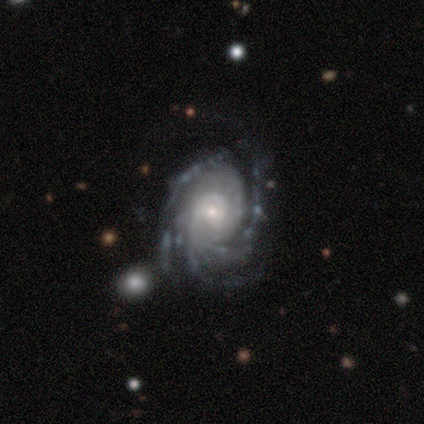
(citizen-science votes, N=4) smooth_or_featured: featured or disk (p=1.00)
disk_edge_on: no (p=1.00)
bar: weak (p=0.50) [tied with: no p=0.50]
has_spiral_arms: yes (p=1.00)
spiral_winding: tight (p=1.00)
spiral_arm_count: 3 (p=0.50) [alt: 4 p=0.25]
bulge_size: small (p=0.75) [alt: moderate p=0.25]
merging: none (p=0.50) [tied with: minor disturbance p=0.50]